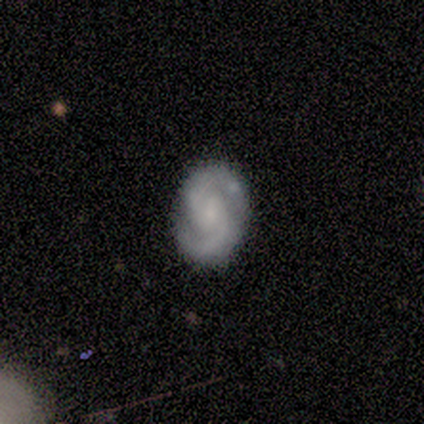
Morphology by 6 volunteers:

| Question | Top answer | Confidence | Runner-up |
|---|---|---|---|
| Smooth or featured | featured or disk | 83% | smooth (17%) |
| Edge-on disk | no | 100% | — |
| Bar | no | 80% | weak (20%) |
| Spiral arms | yes | 100% | — |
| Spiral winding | medium | 60% | tight (20%) |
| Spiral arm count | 2 | 100% | — |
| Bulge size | small | 80% | none (20%) |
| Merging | none | 100% | — |